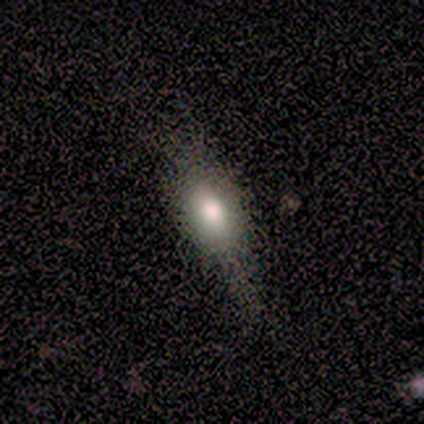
Smooth or featured?
  - smooth: 100% *
  - featured or disk: 0%
  - star or artifact: 0%
How rounded?
  - cigar-shaped: 50% *
  - round: 25%
  - in between: 25%
Merging?
  - none: 75% *
  - minor disturbance: 25%
  - major disturbance: 0%
  - merger: 0%